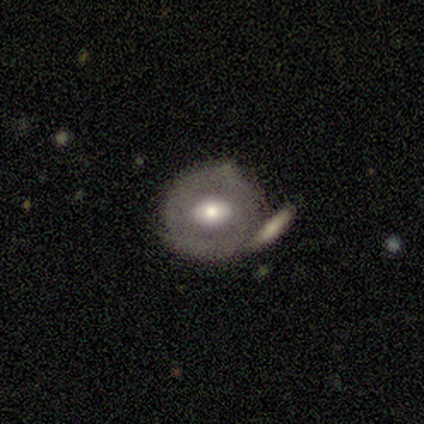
smooth-or-featured: featured or disk: 60% | smooth: 40% | star or artifact: 0%
  disk-edge-on: no: 100% | yes: 0%
    bar: no: 67% | weak: 33% | strong: 0%
    has-spiral-arms: yes: 67% | no: 33%
      spiral-winding: tight: 100% | medium: 0% | loose: 0%
      spiral-arm-count: 2: 100% | 1: 0% | 3: 0% | 4: 0% | more than 4: 0% | can't tell: 0%
    bulge-size: moderate: 100% | dominant: 0% | large: 0% | small: 0% | none: 0%
  merging: none: 40% (tied) | minor disturbance: 40% (tied) | merger: 20% | major disturbance: 0%